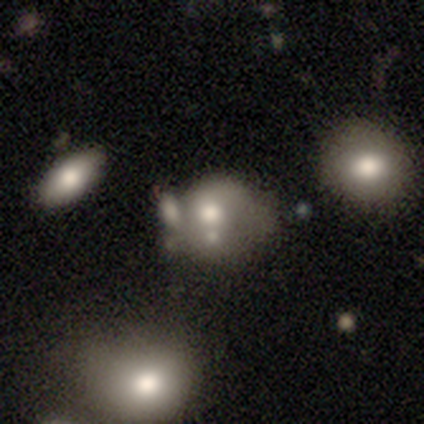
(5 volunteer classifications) Smooth or featured? 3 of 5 (60%) said smooth. How rounded? 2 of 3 (67%) said in between. Merging? 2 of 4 (50%) said merger.